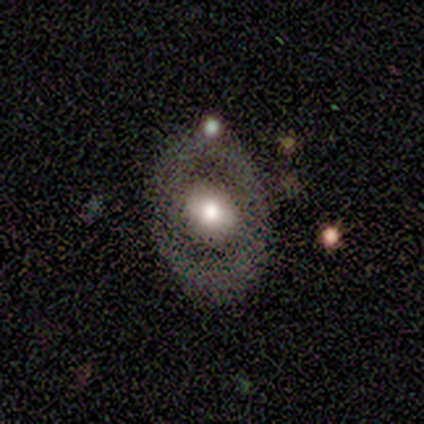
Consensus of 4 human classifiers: Smooth or featured? 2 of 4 (50%) said featured or disk. Edge-on disk? 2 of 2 (100%) said no. Bar? 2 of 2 (100%) said no. Spiral arms? 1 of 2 (50%, tied with no) said yes. Spiral winding? 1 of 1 (100%) said tight. Spiral arm count? 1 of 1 (100%) said 2. Bulge size? 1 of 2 (50%, tied with moderate) said large. Merging? 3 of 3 (100%) said none.